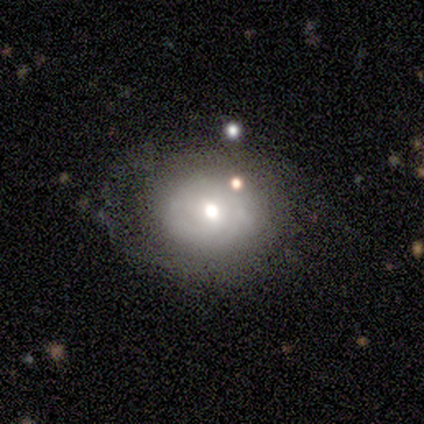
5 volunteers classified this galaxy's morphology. Smooth or featured? 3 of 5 (60%) said smooth. How rounded? 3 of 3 (100%) said round. Merging? 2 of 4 (50%, tied with minor disturbance) said none.